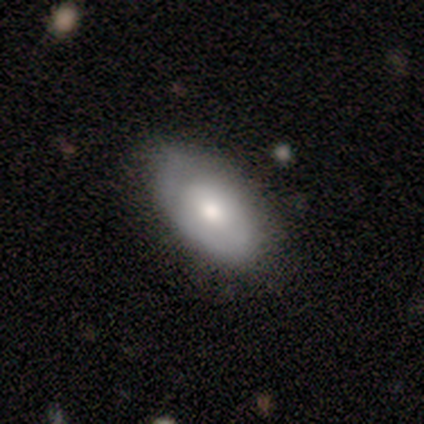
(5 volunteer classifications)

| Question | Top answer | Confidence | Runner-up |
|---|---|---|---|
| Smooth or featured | smooth | 60% | featured or disk (40%) |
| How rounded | in between | 100% | — |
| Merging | none | 80% | minor disturbance (20%) |